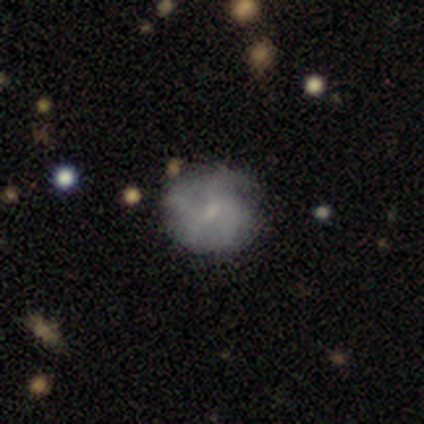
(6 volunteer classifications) Q: Smooth or featured?
A: smooth (83%); runner-up: featured or disk (17%)
Q: How rounded?
A: round (100%)
Q: Merging?
A: none (83%); runner-up: minor disturbance (17%)